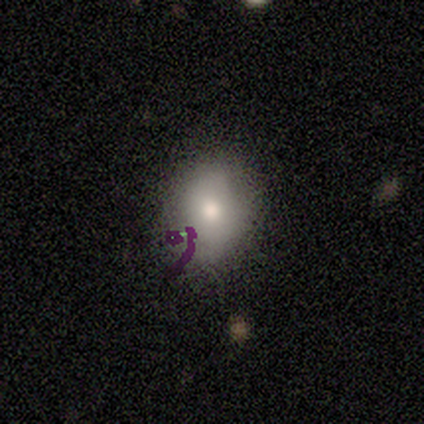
Overall: smooth (80%). How rounded: round (75%). Merging: none (100%).